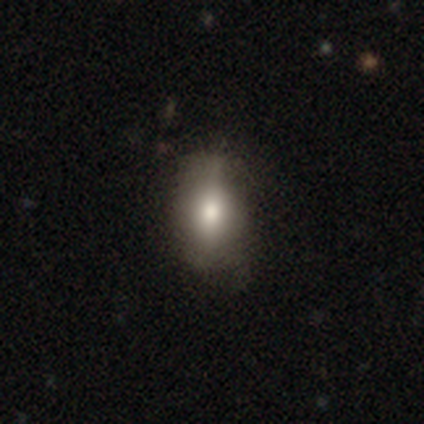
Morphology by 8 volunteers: Overall: smooth (50%; featured or disk 25%). How rounded: in between (100%). Merging: none (67%; minor disturbance 33%).